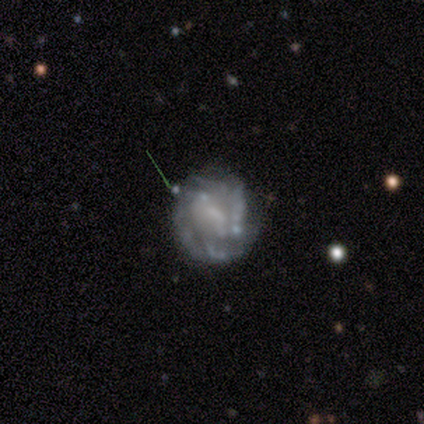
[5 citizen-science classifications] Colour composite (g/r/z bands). It shows a featured or disk galaxy (80%) with a weak bar (75%), tight (100%) spiral arms (75%) and no central bulge (50%). Merging: none (75%).